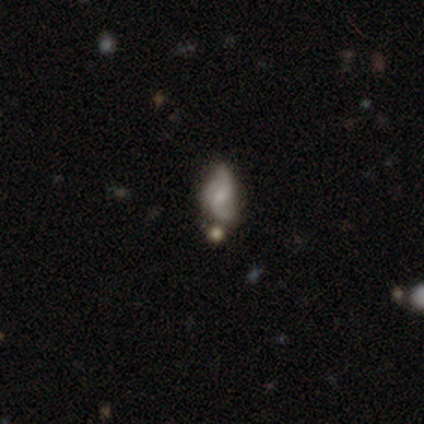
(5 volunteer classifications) Smooth or featured?
  - featured or disk: 80% *
  - smooth: 20%
  - star or artifact: 0%
Edge-on disk?
  - no: 100% *
  - yes: 0%
Bar?
  - no: 75% *
  - weak: 25%
  - strong: 0%
Spiral arms?
  - yes: 75% *
  - no: 25%
Spiral winding?
  - loose: 67% *
  - medium: 33%
  - tight: 0%
Spiral arm count?
  - 2: 100% *
  - 1: 0%
  - 3: 0%
  - 4: 0%
  - more than 4: 0%
  - can't tell: 0%
Bulge size?
  - moderate: 50% * (tied)
  - small: 50% * (tied)
  - dominant: 0%
  - large: 0%
  - none: 0%
Merging?
  - none: 80% *
  - minor disturbance: 20%
  - major disturbance: 0%
  - merger: 0%